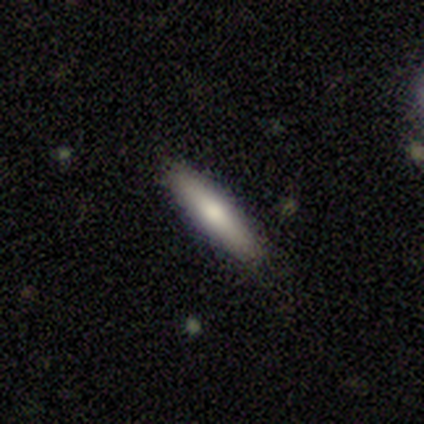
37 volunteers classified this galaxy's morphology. smooth 73%, featured or disk 24%, star or artifact 3%. Down the decision tree: how rounded — cigar-shaped (96%); merging — none (78%).